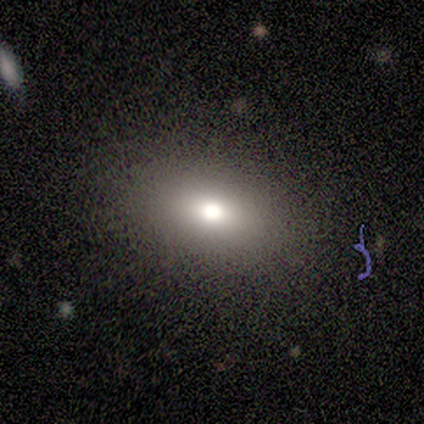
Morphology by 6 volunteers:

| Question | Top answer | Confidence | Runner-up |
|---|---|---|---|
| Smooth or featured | smooth | 83% | star or artifact (17%) |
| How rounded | in between | 100% | — |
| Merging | none | 100% | — |